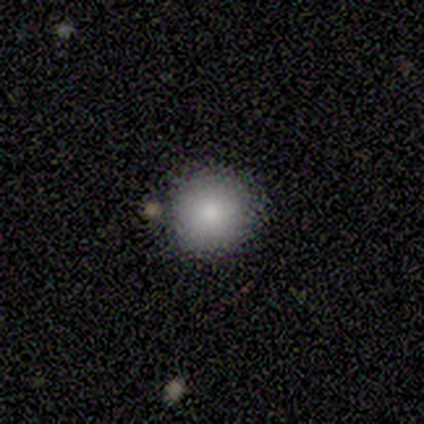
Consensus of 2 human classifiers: Overall: smooth (50%, tied with star or artifact). How rounded: round (100%). Merging: none (100%).